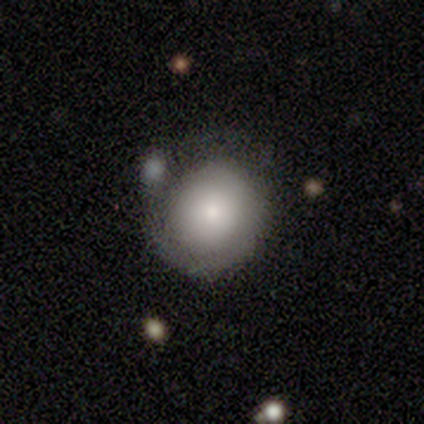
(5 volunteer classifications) A smooth galaxy with no disk features (60%) that is round (67%).

Vote fractions:
- Smooth or featured? smooth: 60% / featured or disk: 40% / star or artifact: 0%
- How rounded? round: 67% / in between: 33% / cigar-shaped: 0%
- Merging? none: 80% / minor disturbance: 20% / major disturbance: 0% / merger: 0%